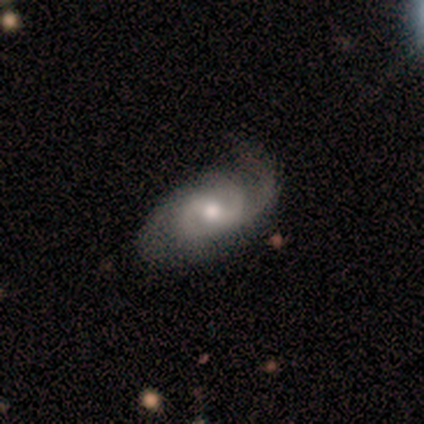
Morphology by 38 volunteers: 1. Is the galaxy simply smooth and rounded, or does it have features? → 87% featured or disk, 11% smooth, 3% star or artifact.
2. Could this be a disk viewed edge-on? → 100% no, 0% yes.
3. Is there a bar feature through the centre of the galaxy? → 48% weak, 30% no, 21% strong.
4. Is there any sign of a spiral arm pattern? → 97% yes, 3% no.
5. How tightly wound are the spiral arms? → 50% medium, 28% loose, 22% tight.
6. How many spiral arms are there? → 72% 2, 16% can't tell, 6% 1, 6% 3, 0% 4, 0% more than 4.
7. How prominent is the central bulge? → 79% moderate, 15% small, 6% large, 0% dominant, 0% none.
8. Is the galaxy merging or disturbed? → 32% none, 19% minor disturbance, 8% major disturbance, 3% merger.